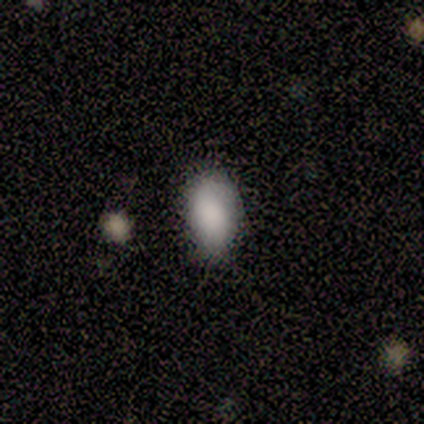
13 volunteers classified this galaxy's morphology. Overall: smooth (100%). How rounded: in between (100%). Merging: none (77%).